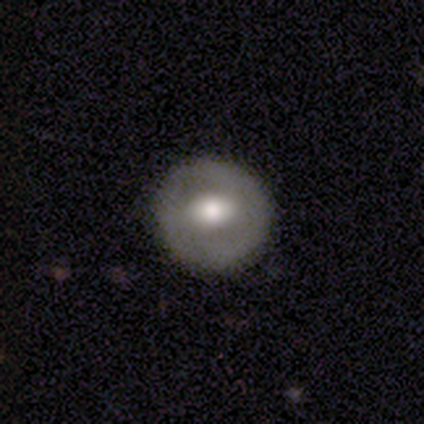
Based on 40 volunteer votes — smooth 48% (tied), featured or disk 48% (tied), star or artifact 5%. Down the decision tree: how rounded — round (100%); merging — none (87%).